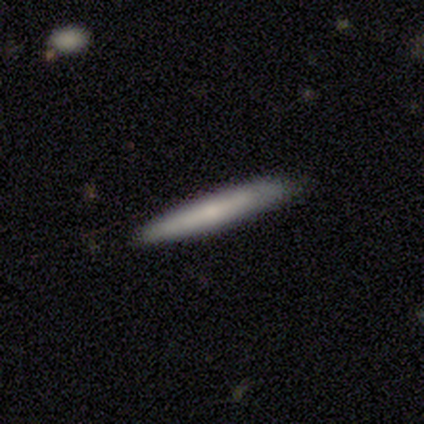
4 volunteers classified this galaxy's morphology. A smooth galaxy with no disk features (75%) that is cigar-shaped (100%).

Vote fractions:
- Smooth or featured? smooth: 75% / featured or disk: 25% / star or artifact: 0%
- How rounded? cigar-shaped: 100% / round: 0% / in between: 0%
- Merging? none: 100% / minor disturbance: 0% / major disturbance: 0% / merger: 0%